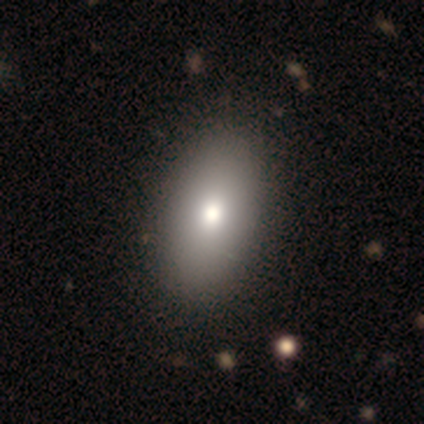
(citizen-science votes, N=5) Smooth or featured? smooth (60%)
How rounded? in between (100%)
Merging? none (75%)